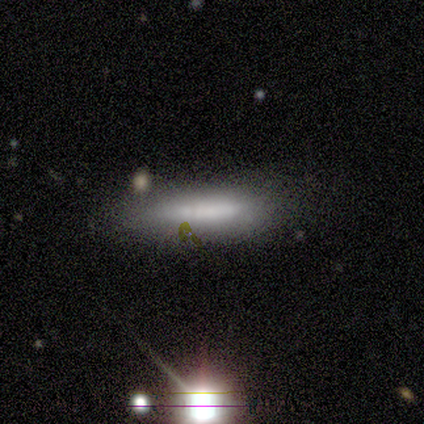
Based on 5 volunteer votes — Morphology: type=smooth (60%); roundness=cigar-shaped (100%); merging=none (75%).